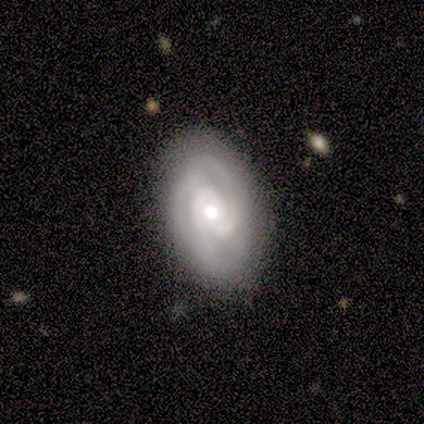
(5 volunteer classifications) smooth-or-featured: featured or disk: 60% | smooth: 20% | star or artifact: 20%
  disk-edge-on: no: 100% | yes: 0%
    bar: no: 100% | strong: 0% | weak: 0%
    has-spiral-arms: yes: 100% | no: 0%
      spiral-winding: tight: 33% (tied) | medium: 33% (tied) | loose: 33% (tied)
      spiral-arm-count: 2: 33% (tied) | 4: 33% (tied) | can't tell: 33% (tied) | 1: 0% | 3: 0% | more than 4: 0%
    bulge-size: moderate: 100% | dominant: 0% | large: 0% | small: 0% | none: 0%
  merging: none: 100% | minor disturbance: 0% | major disturbance: 0% | merger: 0%